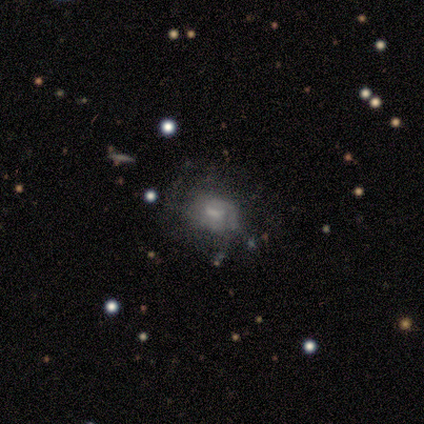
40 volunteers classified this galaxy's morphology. Smooth or featured: featured or disk — 48% (smooth — 45%)
Edge-on disk: no — 100%
Bar: no — 58% (weak — 37%)
Spiral arms: no — 53% (yes — 47%)
Bulge size: none — 53% (small — 37%)
Merging: none — 41% (minor disturbance — 24%)